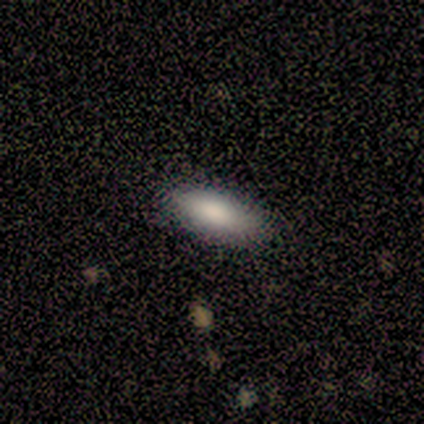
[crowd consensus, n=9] Smooth or featured? 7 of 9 (78%) said smooth. How rounded? 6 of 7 (86%) said in between. Merging? 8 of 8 (100%) said none.